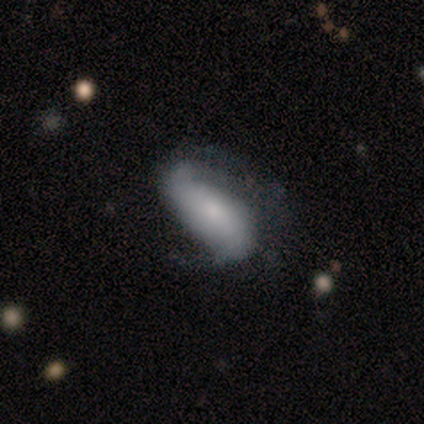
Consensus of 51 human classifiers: This appears to be a featured or disk galaxy (59%) with no bar (57%), 2 (80%) loose (44%) spiral arms (89%) and a small central bulge (46%). Merging: none (43%).